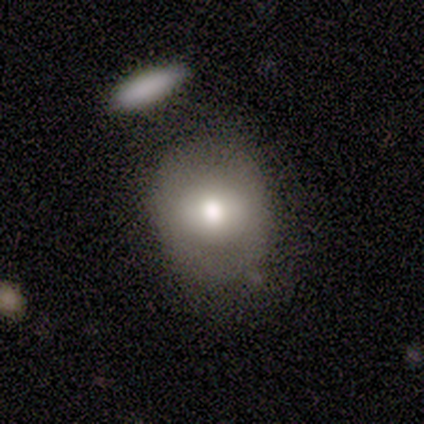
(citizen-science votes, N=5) Volunteers were most divided on "smooth or featured" (2-way tie): smooth: 40%, featured or disk: 40%, star or artifact: 20%; "how rounded" (2-way tie): round: 50%, in between: 50%, cigar-shaped: 0%. More confident: merging — none (50%).